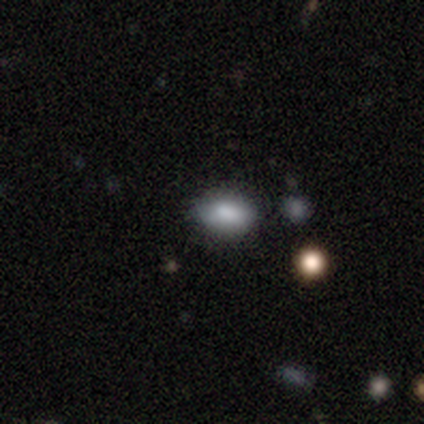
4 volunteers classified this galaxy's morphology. Overall: smooth (75%). How rounded: in between (100%). Merging: none (75%).